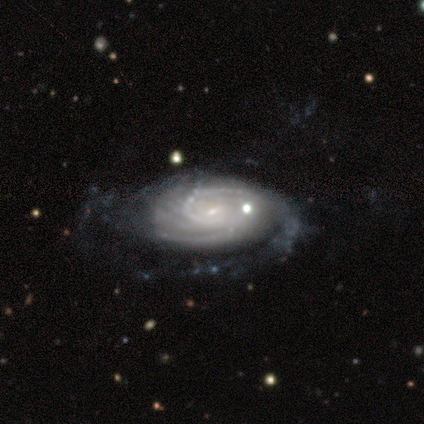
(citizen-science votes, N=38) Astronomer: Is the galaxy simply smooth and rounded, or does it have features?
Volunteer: featured or disk — 95%.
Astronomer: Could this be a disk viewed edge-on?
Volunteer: no — 100%.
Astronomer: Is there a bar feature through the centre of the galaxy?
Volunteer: weak — 50% (runner-up: no, 42%).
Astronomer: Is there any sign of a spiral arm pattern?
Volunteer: yes — 100%.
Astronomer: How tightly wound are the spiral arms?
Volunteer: tight — 72%.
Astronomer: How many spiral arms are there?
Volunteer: can't tell — 36% (runner-up: more than 4, 19%).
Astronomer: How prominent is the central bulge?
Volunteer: small — 78%.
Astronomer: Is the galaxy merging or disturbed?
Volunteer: none — 58%.